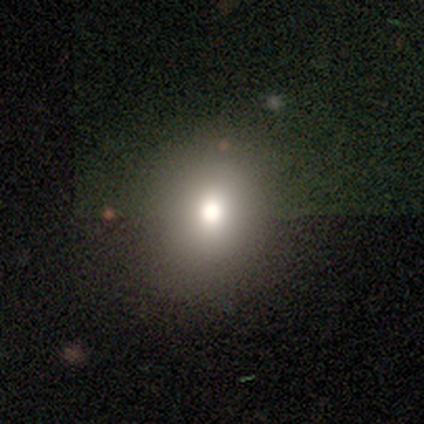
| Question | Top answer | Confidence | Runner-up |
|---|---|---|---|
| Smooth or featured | smooth | 75% | star or artifact (25%) |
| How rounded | round | 100% | — |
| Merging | none | 100% | — |